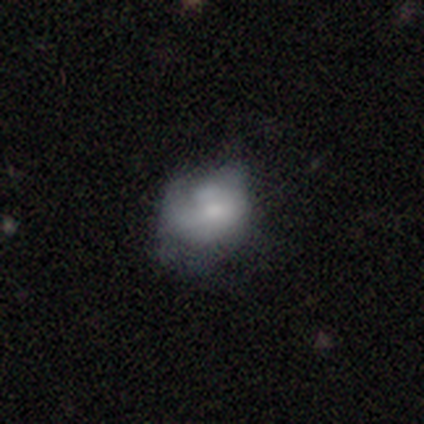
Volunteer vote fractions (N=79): Smooth or featured: featured or disk — 56% (smooth — 38%)
Edge-on disk: no — 100%
Bar: no — 89% (weak — 9%)
Spiral arms: no — 70% (yes — 30%)
Bulge size: small — 45% (moderate — 30%)
Merging: minor disturbance — 20% (tied with major disturbance — 20%)